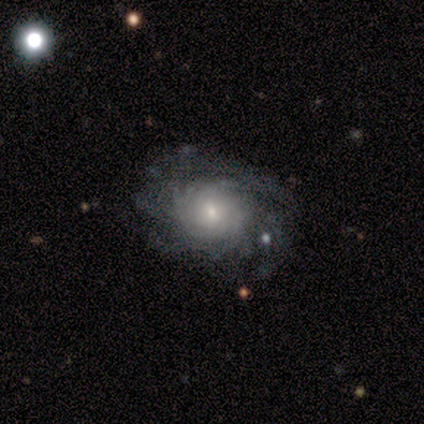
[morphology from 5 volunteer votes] Overall: featured or disk (80%). Edge-on disk: no (100%). Bar: no (50%; strong 25%). Spiral arms: yes (100%). Spiral arm count: more than 4 (50%; 3 25%). Spiral winding: tight (50%, tied with medium). Bulge size: small (50%; large 25%). Merging: none (60%; minor disturbance 20%).